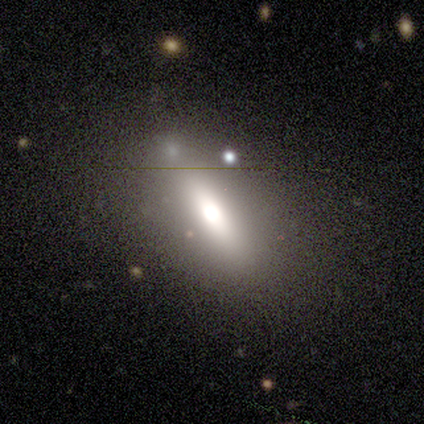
Overall: smooth (68%). How rounded: in between (73%). Merging: none (68%).